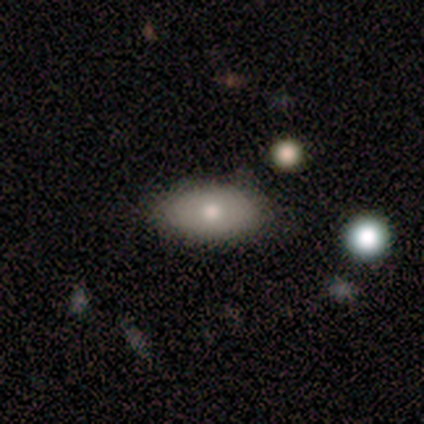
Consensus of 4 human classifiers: Smooth or featured? 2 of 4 (50%, tied with featured or disk) said smooth. How rounded? 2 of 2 (100%) said in between. Merging? 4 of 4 (100%) said none.